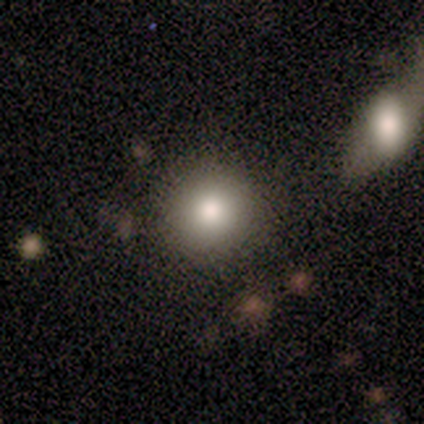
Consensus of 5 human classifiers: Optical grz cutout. It shows a smooth galaxy with no disk features (100%) that is round (100%). Merging: none (100%).